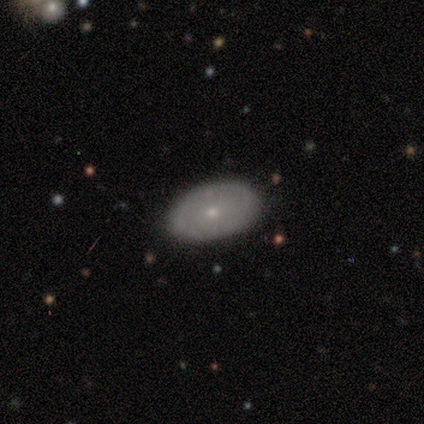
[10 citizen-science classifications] Overall: smooth (60%; featured or disk 40%). How rounded: in between (100%). Merging: none (70%; minor disturbance 30%).